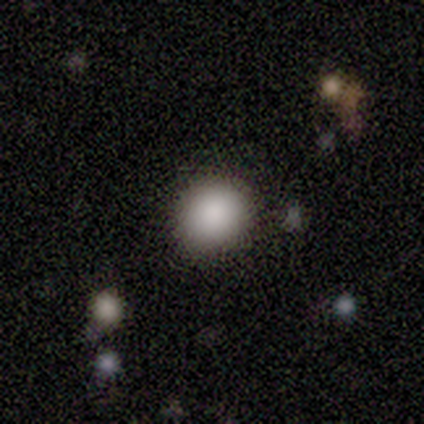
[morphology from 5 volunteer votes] smooth-or-featured: smooth: 100% | featured or disk: 0% | star or artifact: 0%
  how-rounded: round: 100% | in between: 0% | cigar-shaped: 0%
  merging: none: 100% | minor disturbance: 0% | major disturbance: 0% | merger: 0%